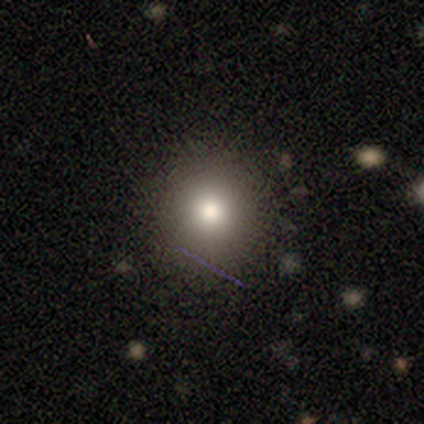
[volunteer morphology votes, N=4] Q: Smooth or featured?
A: smooth (50%); runner-up: featured or disk (25%)
Q: How rounded?
A: round (100%)
Q: Merging?
A: none (67%); runner-up: minor disturbance (33%)